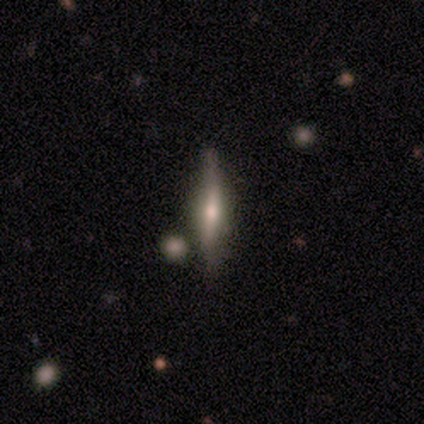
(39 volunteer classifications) A featured or disk galaxy (54%) viewed edge-on (90%) with a rounded central bulge (95%).

Vote fractions:
- Smooth or featured? featured or disk: 54% / smooth: 36% / star or artifact: 10%
- Edge-on disk? yes: 90% / no: 10%
- Edge-on bulge? rounded: 95% / boxy: 5% / none: 0%
- Merging? none: 80% / minor disturbance: 11% / merger: 6% / major disturbance: 3%